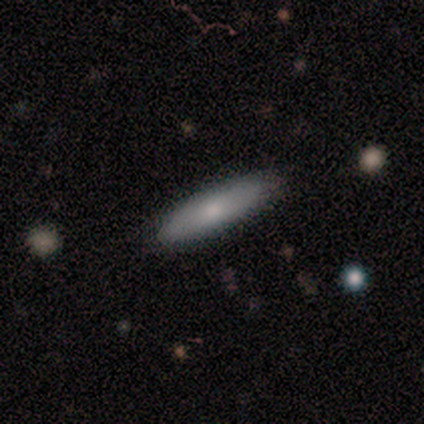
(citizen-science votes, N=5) Smooth or featured: smooth — 60% (featured or disk — 40%)
How rounded: cigar-shaped — 67% (in between — 33%)
Merging: none — 100%